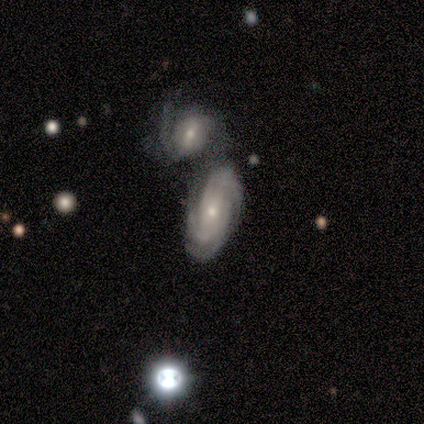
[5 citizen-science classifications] Volunteers were most divided on "bar" (2-way tie): weak: 50%, no: 50%, strong: 0%. More confident: smooth or featured — featured or disk (100%); edge-on disk — no (80%); spiral arms — yes (75%); bulge size — small (75%); spiral winding — tight (67%); spiral arm count — 3 (67%); merging — merger (60%).